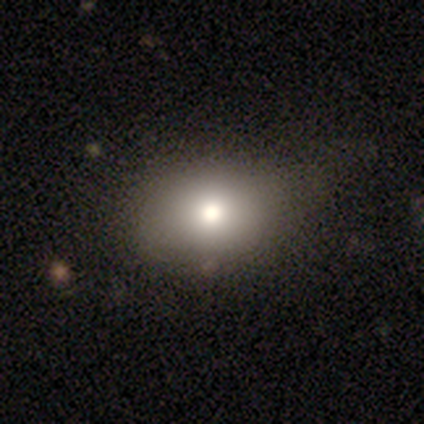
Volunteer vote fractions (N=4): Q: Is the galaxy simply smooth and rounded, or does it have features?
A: smooth — 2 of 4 (50%, tied with featured or disk).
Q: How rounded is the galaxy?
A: in between — 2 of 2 (100%).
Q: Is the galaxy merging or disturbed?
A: none — 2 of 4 (50%, tied with minor disturbance).